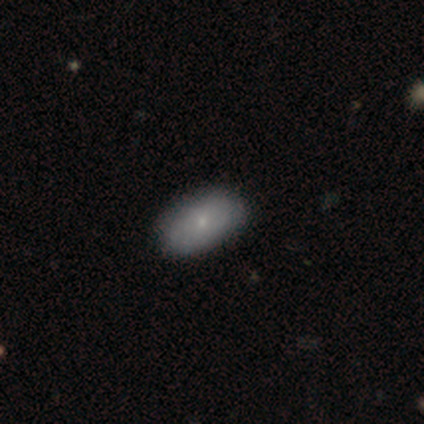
Overall: smooth (60%; featured or disk 40%). How rounded: in between (100%). Merging: none (100%).